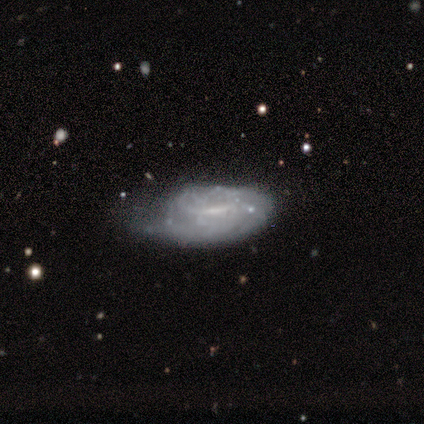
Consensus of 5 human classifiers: Morphology: type=featured or disk (80%); edge-on=no (75%); bar=strong (33%, tied with weak and no); spiral arms=no (67%); bulge=moderate (100%); merging=none (60%).